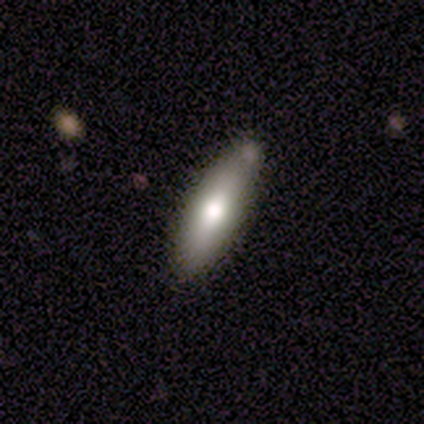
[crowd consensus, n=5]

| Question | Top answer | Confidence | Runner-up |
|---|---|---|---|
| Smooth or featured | smooth | 60% | featured or disk (40%) |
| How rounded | in between | 100% | — |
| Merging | none | 60% | minor disturbance (40%) |